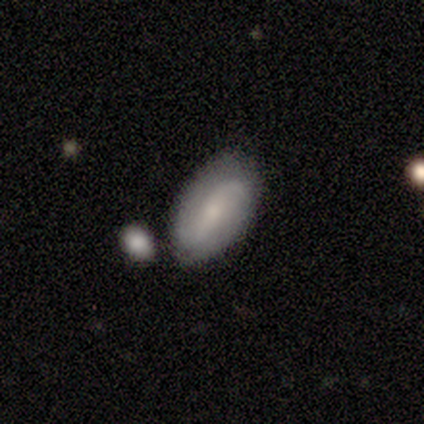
Smooth or featured? smooth (60%)
How rounded? in between (100%)
Merging? none (100%)